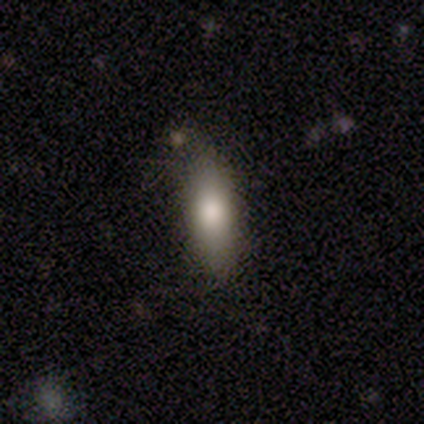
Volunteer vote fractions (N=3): Morphology: type=smooth (100%); roundness=in between (67%); merging=none (67%).